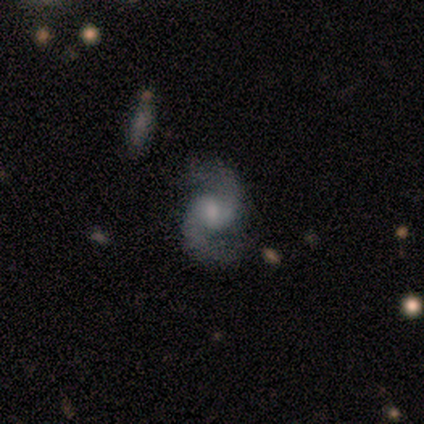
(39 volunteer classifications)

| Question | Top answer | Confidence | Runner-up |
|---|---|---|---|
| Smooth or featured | featured or disk | 97% | star or artifact (3%) |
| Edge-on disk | no | 100% | — |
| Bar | no | 50% | weak (45%) |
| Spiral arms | yes | 95% | no (5%) |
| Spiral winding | loose | 56% | medium (39%) |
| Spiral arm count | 2 | 100% | — |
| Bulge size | moderate | 37% | small (34%) |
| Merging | none | 71% | minor disturbance (21%) |